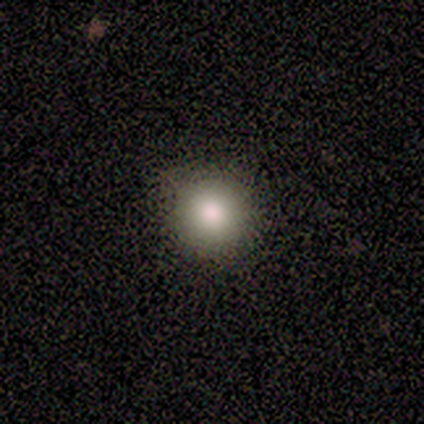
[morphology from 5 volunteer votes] Smooth or featured?
  - smooth: 60% *
  - featured or disk: 40%
  - star or artifact: 0%
How rounded?
  - round: 100% *
  - in between: 0%
  - cigar-shaped: 0%
Merging?
  - none: 80% *
  - minor disturbance: 20%
  - major disturbance: 0%
  - merger: 0%